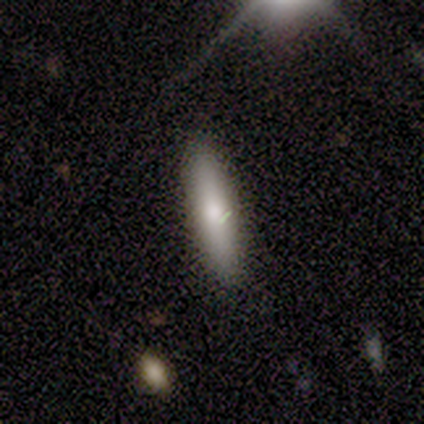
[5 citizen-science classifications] This is likely a smooth galaxy (60%). How rounded: clearly cigar-shaped (100%). Merging: clearly none (100%).